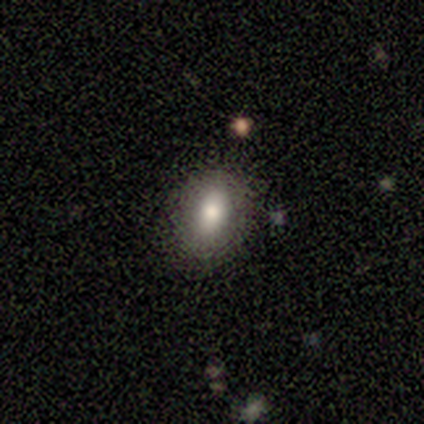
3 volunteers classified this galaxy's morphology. Overall: smooth (100%). How rounded: in between (100%). Merging: none (100%).